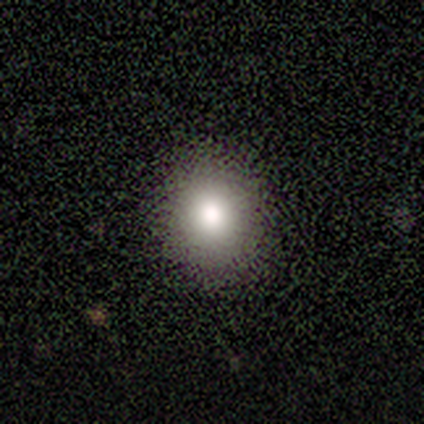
smooth-or-featured: smooth: 67% | featured or disk: 33% | star or artifact: 0%
  how-rounded: round: 50% (tied) | in between: 50% (tied) | cigar-shaped: 0%
  merging: none: 67% | minor disturbance: 33% | major disturbance: 0% | merger: 0%